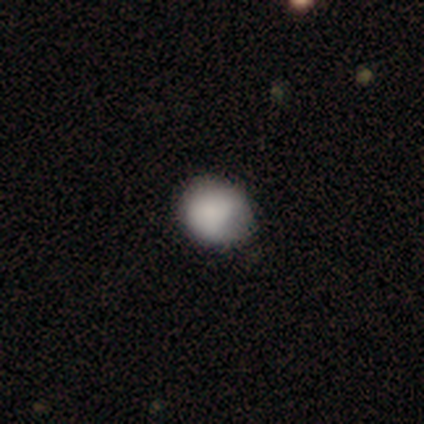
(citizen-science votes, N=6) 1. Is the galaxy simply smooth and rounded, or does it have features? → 100% smooth, 0% featured or disk, 0% star or artifact.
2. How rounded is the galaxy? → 100% round, 0% in between, 0% cigar-shaped.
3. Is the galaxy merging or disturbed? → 67% none, 33% minor disturbance, 0% major disturbance, 0% merger.